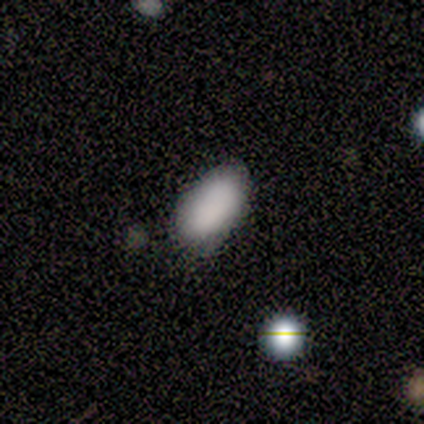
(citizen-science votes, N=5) Smooth or featured: smooth — 80% (featured or disk — 20%)
How rounded: in between — 100%
Merging: none — 60% (minor disturbance — 40%)